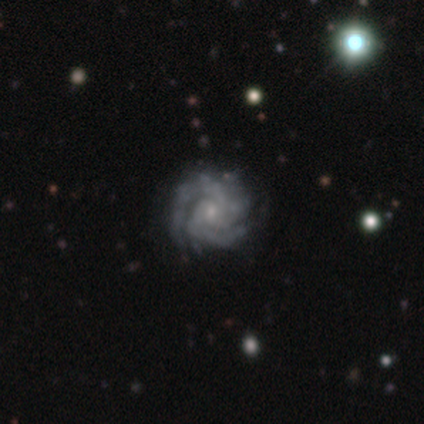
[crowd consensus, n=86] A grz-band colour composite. It shows a featured or disk galaxy (92%) with no bar (75%), 3 (47%) tight (68%) spiral arms (100%) and a small central bulge (88%). Merging: none (81%).